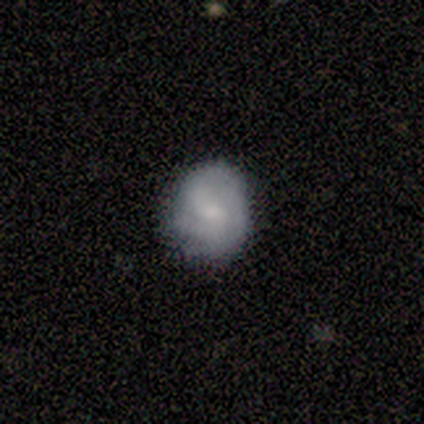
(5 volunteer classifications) Overall: smooth (60%; featured or disk 40%). How rounded: round (67%; in between 33%). Merging: none (100%).